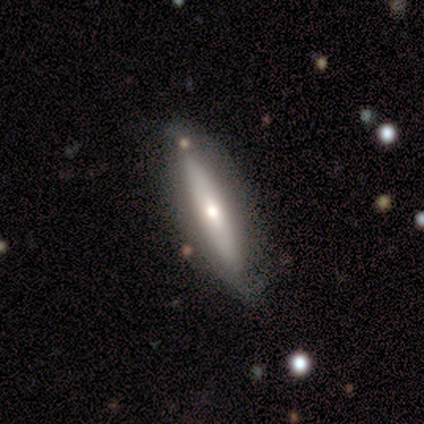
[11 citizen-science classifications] Overall: featured or disk (73%). Edge-on disk: yes (100%). Edge-on bulge: rounded (75%). Merging: none (64%).